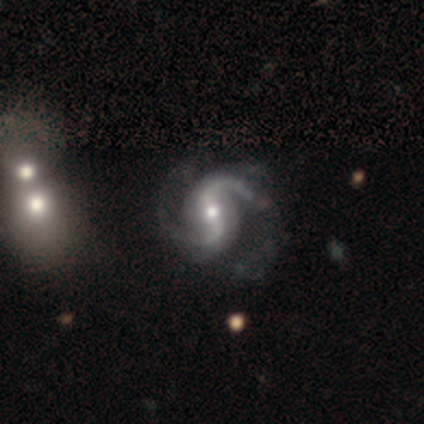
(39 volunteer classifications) featured or disk 97%, smooth 3%, star or artifact 0%. Down the decision tree: edge-on disk — no (95%); bar — strong (42%); spiral arms — yes (100%); spiral arm count — 2 (94%); spiral winding — loose (53%); bulge size — moderate (53%); merging — none (49%).